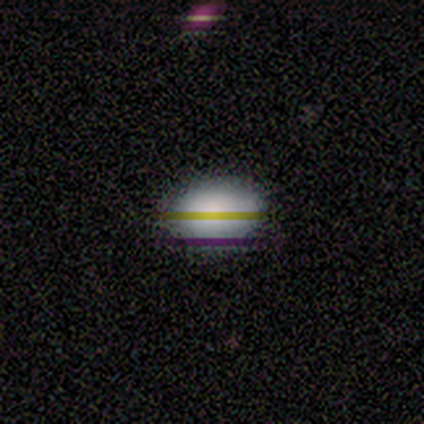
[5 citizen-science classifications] Overall: smooth (80%). How rounded: in between (75%). Merging: none (100%).